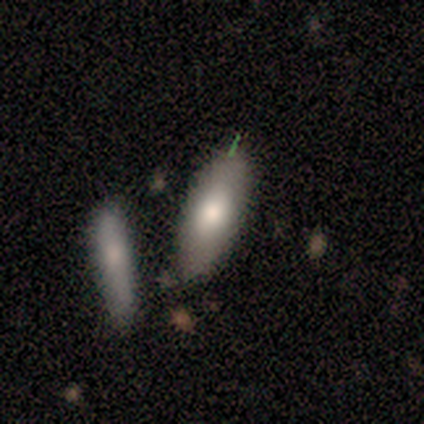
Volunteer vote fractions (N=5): A smooth galaxy with no disk features (80%) that is in between round and cigar-shaped (75%). Merging: none (60%).